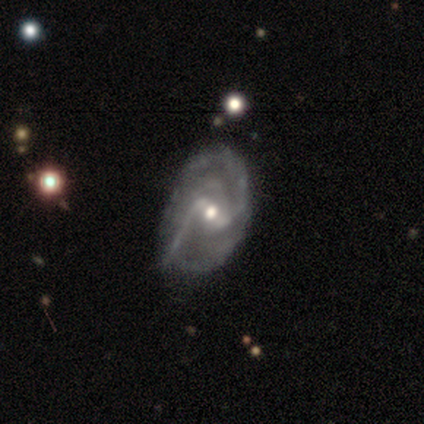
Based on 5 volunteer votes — Volunteers were most divided on "spiral winding": medium: 60%, tight: 40%, loose: 0%. More confident: smooth or featured — featured or disk (100%); edge-on disk — no (100%); spiral arms — yes (100%); bar — weak (80%); spiral arm count — 2 (60%); bulge size — moderate (60%); merging — none (60%).